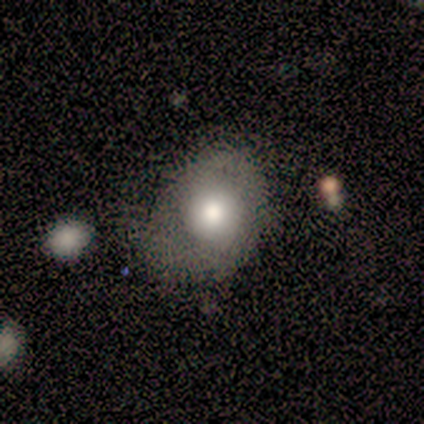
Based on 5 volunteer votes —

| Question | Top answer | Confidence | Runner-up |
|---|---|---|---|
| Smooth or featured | smooth | 60% | featured or disk (20%) |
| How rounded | in between | 67% | round (33%) |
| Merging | minor disturbance | 75% | none (25%) |